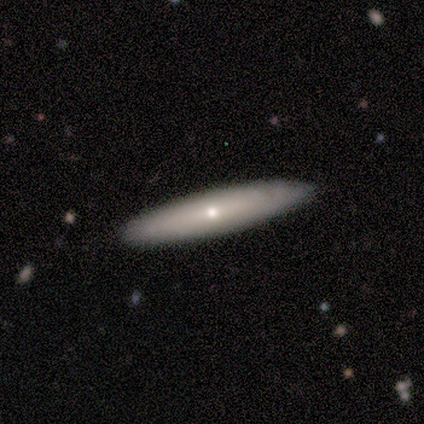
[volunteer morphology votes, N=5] smooth-or-featured: featured or disk: 80% | smooth: 20% | star or artifact: 0%
  disk-edge-on: yes: 75% | no: 25%
    edge-on-bulge: rounded: 67% | none: 33% | boxy: 0%
  merging: none: 100% | minor disturbance: 0% | major disturbance: 0% | merger: 0%